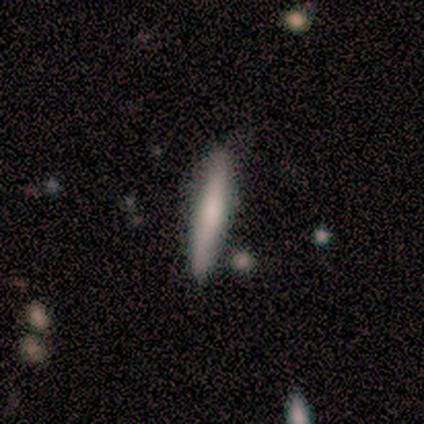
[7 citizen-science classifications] Smooth or featured? smooth (71%)
How rounded? cigar-shaped (100%)
Merging? none (71%)